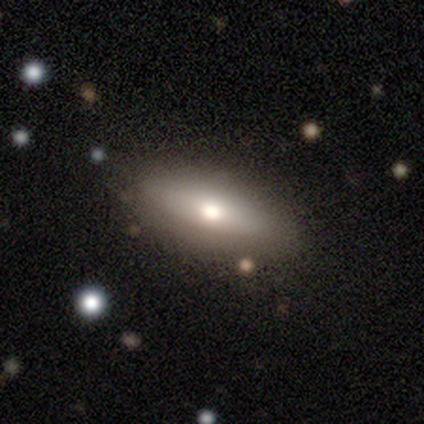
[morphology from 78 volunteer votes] Overall: smooth (71%). How rounded: in between (75%). Merging: none (71%).